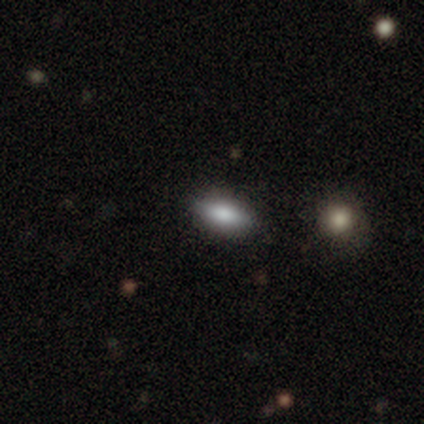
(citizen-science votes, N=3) smooth-or-featured: smooth: 100% | featured or disk: 0% | star or artifact: 0%
  how-rounded: round: 33% (tied) | in between: 33% (tied) | cigar-shaped: 33% (tied)
  merging: minor disturbance: 67% | none: 33% | major disturbance: 0% | merger: 0%